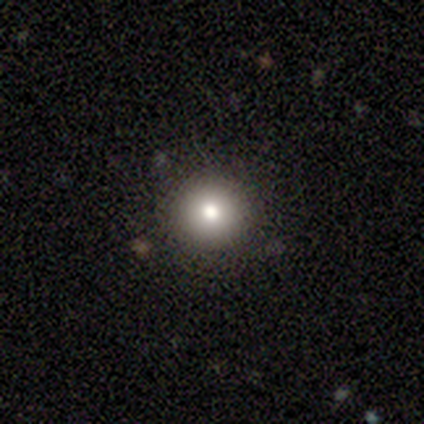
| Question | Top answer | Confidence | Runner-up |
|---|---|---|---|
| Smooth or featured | smooth | 67% | star or artifact (33%) |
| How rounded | round | 100% | — |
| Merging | none | 100% | — |